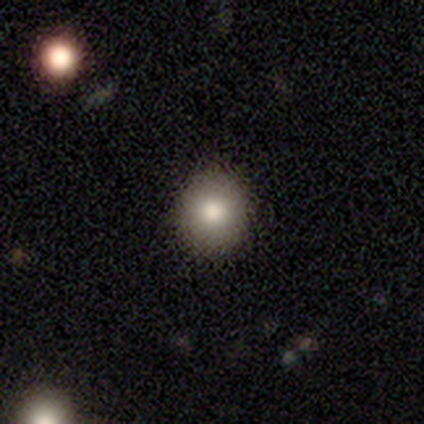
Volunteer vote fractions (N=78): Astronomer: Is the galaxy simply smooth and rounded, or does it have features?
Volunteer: smooth — 78%.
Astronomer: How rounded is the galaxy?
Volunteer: round — 89%.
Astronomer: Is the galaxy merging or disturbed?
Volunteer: none — 57%.